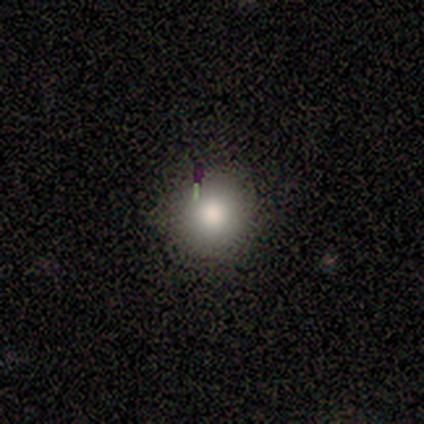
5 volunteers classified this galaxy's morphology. Consensus on every question: smooth or featured — smooth (100%); how rounded — round (100%); merging — none (100%).